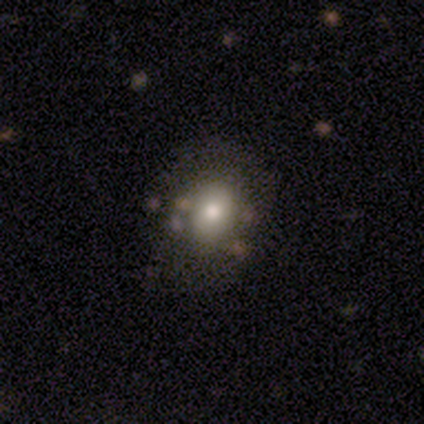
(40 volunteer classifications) Smooth or featured?
  - smooth: 57% *
  - featured or disk: 25%
  - star or artifact: 18%
How rounded?
  - round: 52% *
  - in between: 48%
  - cigar-shaped: 0%
Merging?
  - none: 67% *
  - minor disturbance: 15%
  - major disturbance: 9%
  - merger: 9%